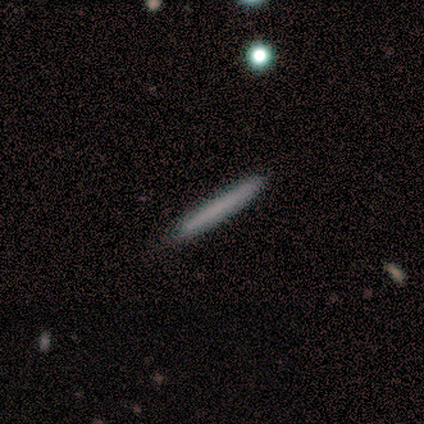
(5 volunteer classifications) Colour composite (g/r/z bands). It shows a smooth galaxy with no disk features (100%) that is cigar-shaped (100%). Merging: none (100%).